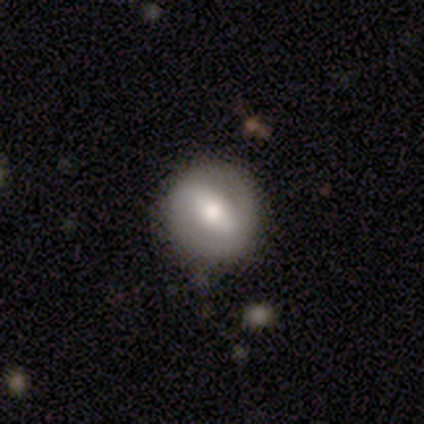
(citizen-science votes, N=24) A featured or disk galaxy (62%) with a strong bar (50%), 2 (89%) tight (56%) spiral arms (64%) and a moderate central bulge (86%). Merging: none (77%).